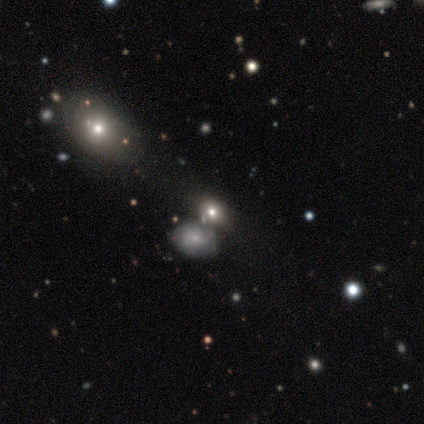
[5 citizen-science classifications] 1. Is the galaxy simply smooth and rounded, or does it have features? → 60% star or artifact, 20% smooth, 20% featured or disk.